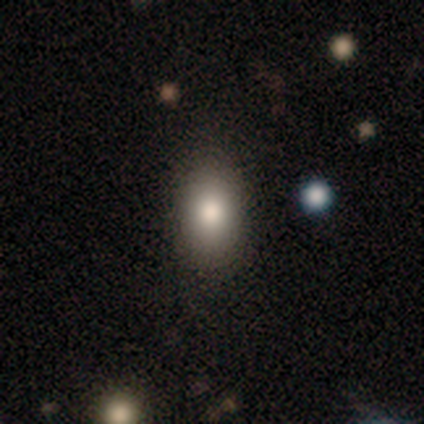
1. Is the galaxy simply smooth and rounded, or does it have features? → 100% smooth, 0% featured or disk, 0% star or artifact.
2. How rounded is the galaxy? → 100% in between, 0% round, 0% cigar-shaped.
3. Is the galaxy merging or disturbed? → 100% none, 0% minor disturbance, 0% major disturbance, 0% merger.